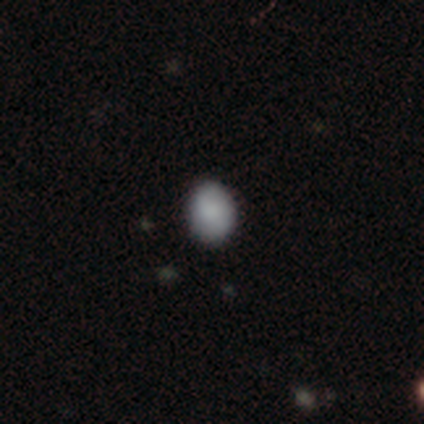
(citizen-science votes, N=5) smooth_or_featured: smooth (p=0.40) [tied with: featured or disk p=0.40]
how_rounded: round (p=0.50) [tied with: in between p=0.50]
merging: none (p=1.00)